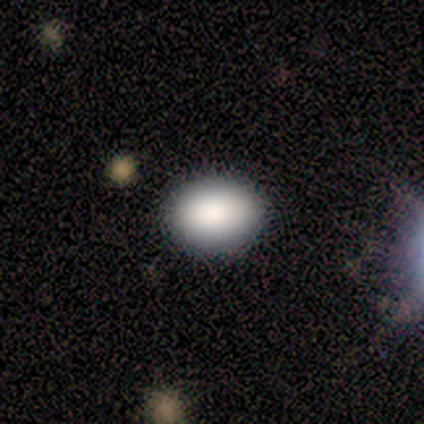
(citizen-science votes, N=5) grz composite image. It shows a smooth galaxy with no disk features (100%) that is in between round and cigar-shaped (60%). Merging: none (100%).